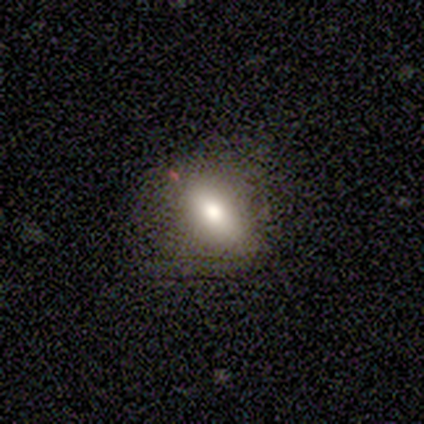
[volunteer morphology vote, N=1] A star or artifact, not a galaxy (100%).